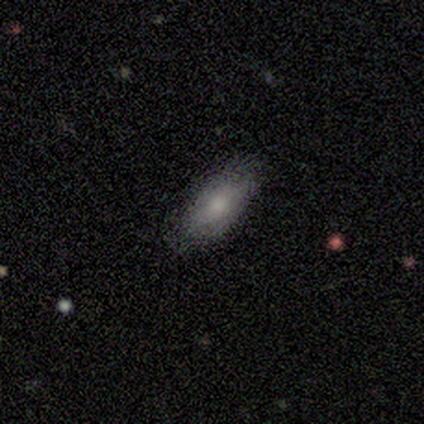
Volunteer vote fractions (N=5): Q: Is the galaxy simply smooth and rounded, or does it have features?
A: smooth — 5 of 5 (100%).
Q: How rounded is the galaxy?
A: in between — 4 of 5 (80%).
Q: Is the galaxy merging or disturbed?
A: none — 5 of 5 (100%).